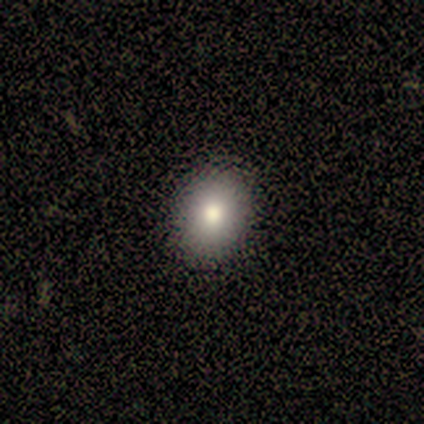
Smooth or featured: smooth — 100%
How rounded: round — 75% (in between — 25%)
Merging: none — 75% (major disturbance — 25%)